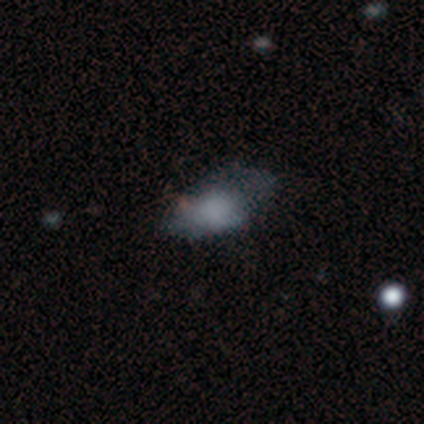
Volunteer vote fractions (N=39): A smooth galaxy with no disk features (67%) that is in between round and cigar-shaped (100%). Merging: none (60%).